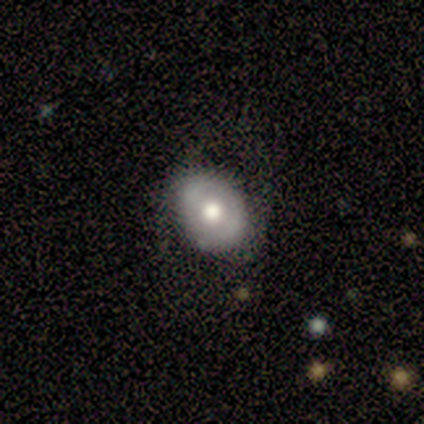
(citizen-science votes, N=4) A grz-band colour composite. It shows a smooth galaxy with no disk features (75%) that is round (67%). Merging: none (67%).